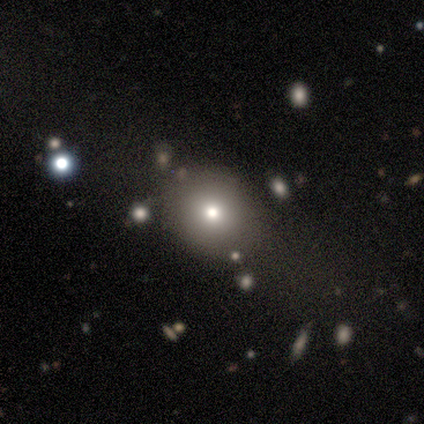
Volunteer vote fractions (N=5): Overall: smooth (60%; featured or disk 20%). How rounded: in between (67%; round 33%). Merging: none (50%; minor disturbance 25%).